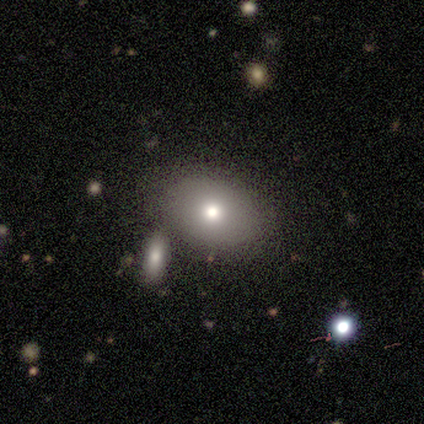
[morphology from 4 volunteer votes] Smooth or featured? smooth (100%)
How rounded? round (50%, tied with in between)
Merging? none (50%)